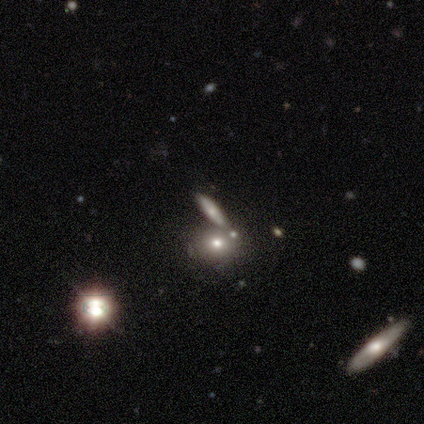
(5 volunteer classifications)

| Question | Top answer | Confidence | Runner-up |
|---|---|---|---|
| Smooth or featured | smooth | 40% | tied: featured or disk (40%) |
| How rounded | cigar-shaped | 100% | — |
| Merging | none | 50% | minor disturbance (25%) |